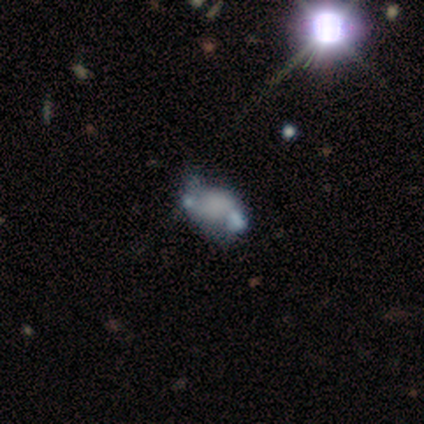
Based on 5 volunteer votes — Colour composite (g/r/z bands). It shows a featured or disk galaxy (60%) with no bar (67%), no spiral arms (67%) and no central bulge (100%). Merging: none (50%).